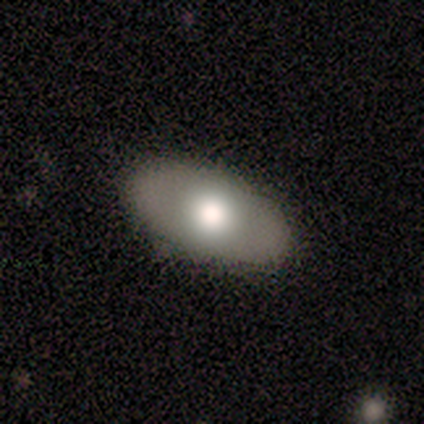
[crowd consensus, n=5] smooth-or-featured: smooth: 60% | featured or disk: 40% | star or artifact: 0%
  how-rounded: in between: 100% | round: 0% | cigar-shaped: 0%
  merging: none: 100% | minor disturbance: 0% | major disturbance: 0% | merger: 0%